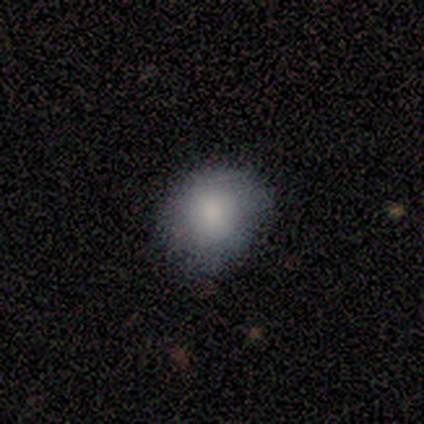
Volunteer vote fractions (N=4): This appears to be a smooth galaxy with no disk features (75%) that is in between round and cigar-shaped (67%). Merging: none (50%, tied with minor disturbance).